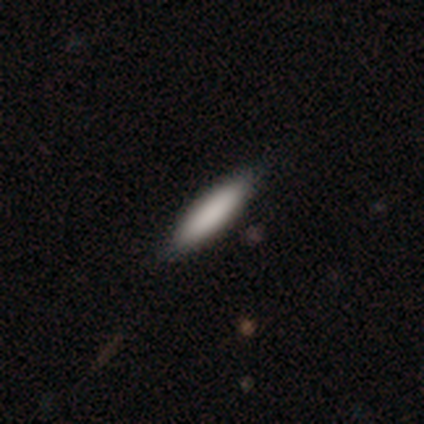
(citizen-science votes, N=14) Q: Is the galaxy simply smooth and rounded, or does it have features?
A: smooth — 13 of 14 (93%).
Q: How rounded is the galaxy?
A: cigar-shaped — 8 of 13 (62%).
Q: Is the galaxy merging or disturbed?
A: none — 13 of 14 (93%).